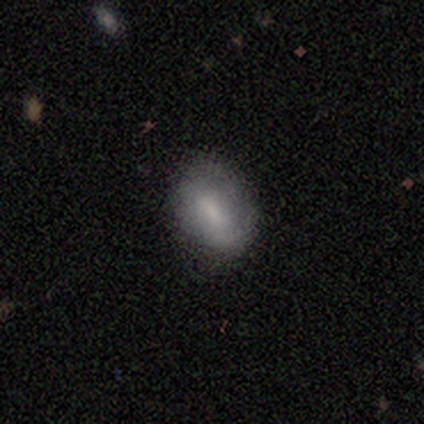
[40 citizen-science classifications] Smooth or featured? smooth (65%)
How rounded? in between (85%)
Merging? none (78%)